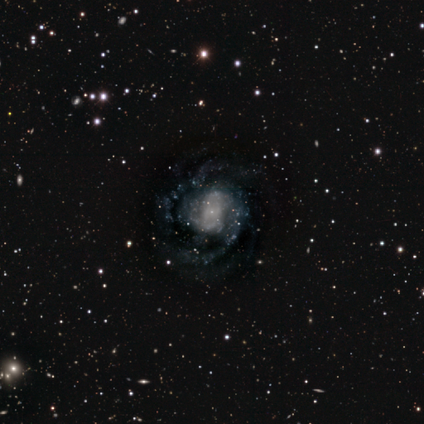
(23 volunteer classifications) A featured or disk galaxy (100%) with no bar (61%), 2 (55%) medium (50%) spiral arms (96%) and a small central bulge (43%). Merging: none (52%).